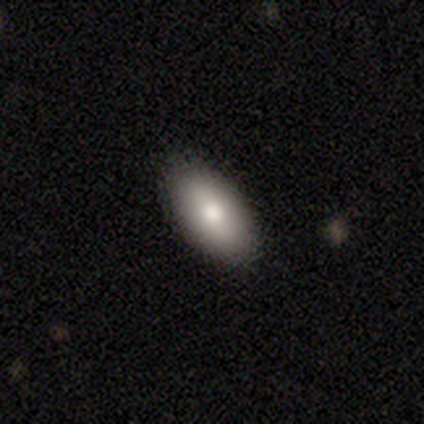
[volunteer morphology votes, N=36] smooth-or-featured: smooth: 78% | featured or disk: 17% | star or artifact: 6%
  how-rounded: in between: 96% | cigar-shaped: 4% | round: 0%
  merging: none: 88% | minor disturbance: 12% | major disturbance: 0% | merger: 0%